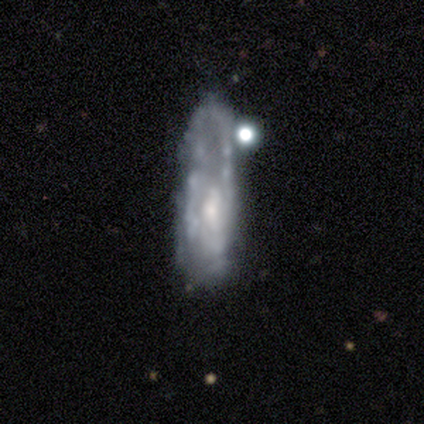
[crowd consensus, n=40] Morphology: type=featured or disk (65%); edge-on=no (92%); bar=no (79%); spiral arms=yes (75%); winding=loose (44%); arm count=can't tell (50%); bulge=moderate (50%); merging=none (45%).